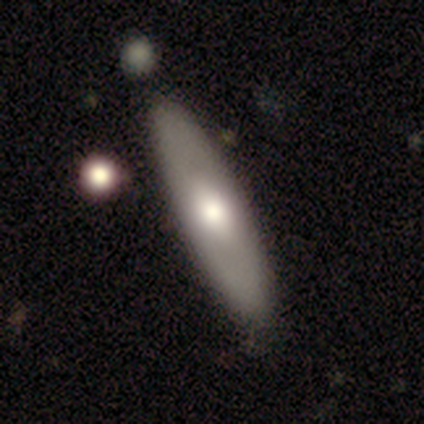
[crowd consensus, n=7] smooth_or_featured: smooth (p=0.57) [alt: featured or disk p=0.43]
how_rounded: cigar-shaped (p=0.75) [alt: in between p=0.25]
merging: none (p=0.86) [alt: minor disturbance p=0.14]